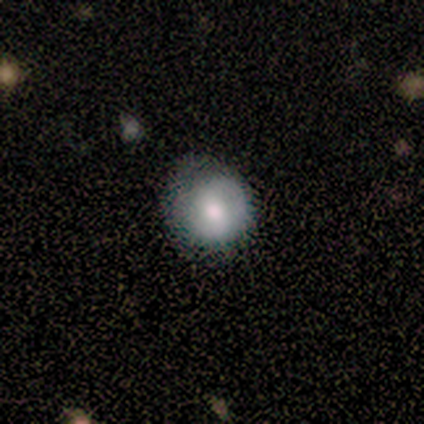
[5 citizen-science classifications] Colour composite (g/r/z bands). It shows a smooth galaxy with no disk features (80%) that is round (100%). Merging: minor disturbance (60%).